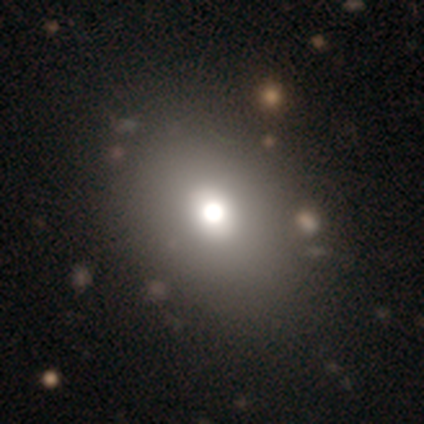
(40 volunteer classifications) A smooth galaxy with no disk features (72%) that is in between round and cigar-shaped (59%).

Vote fractions:
- Smooth or featured? smooth: 72% / star or artifact: 15% / featured or disk: 12%
- How rounded? in between: 59% / round: 41% / cigar-shaped: 0%
- Merging? none: 44% / merger: 12% / minor disturbance: 6% / major disturbance: 0%